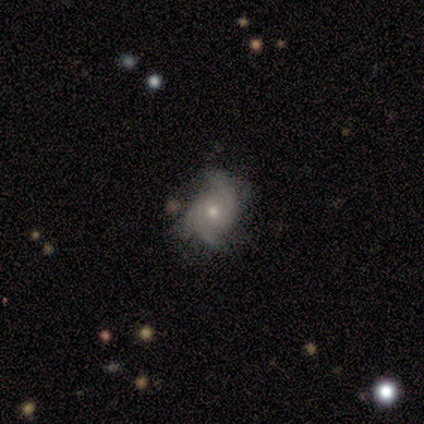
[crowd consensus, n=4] Morphology: type=featured or disk (100%); edge-on=no (100%); bar=no (100%); spiral arms=yes (100%); winding=medium (100%); arm count=3 (75%); bulge=moderate (50%, tied with small); merging=none (50%, tied with minor disturbance).